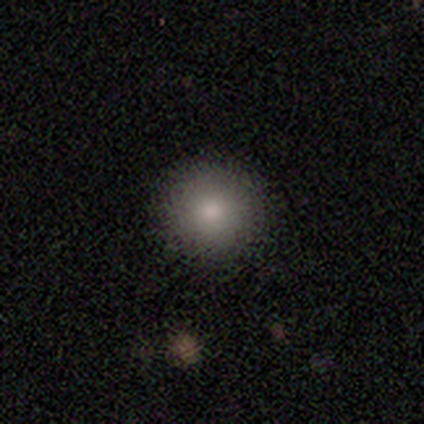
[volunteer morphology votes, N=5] Q: Smooth or featured?
A: smooth (100%)
Q: How rounded?
A: round (100%)
Q: Merging?
A: none (100%)